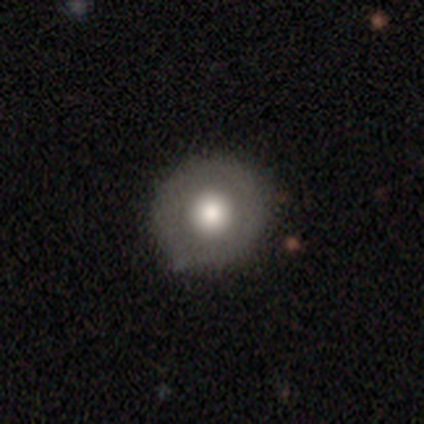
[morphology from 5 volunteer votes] Smooth or featured: smooth — 60% (featured or disk — 20%)
How rounded: round — 100%
Merging: none — 75% (major disturbance — 25%)